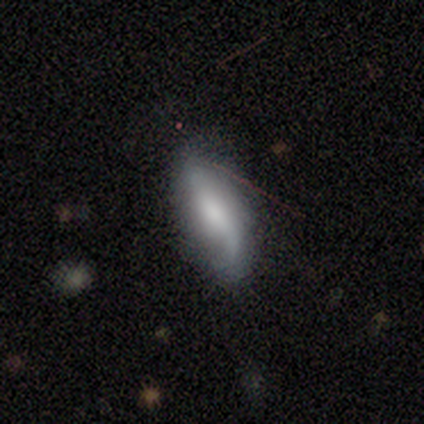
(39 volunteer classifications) Smooth or featured? 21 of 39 (54%) said smooth. How rounded? 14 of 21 (67%) said in between. Merging? 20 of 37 (54%) said none.